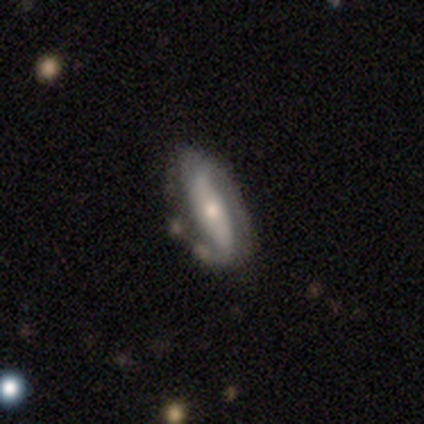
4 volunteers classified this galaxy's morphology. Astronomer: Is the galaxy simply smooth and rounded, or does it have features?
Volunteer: featured or disk — 100%.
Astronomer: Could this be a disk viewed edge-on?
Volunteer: no — 100%.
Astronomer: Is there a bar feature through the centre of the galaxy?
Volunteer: strong — 50%, tied with weak at 50%.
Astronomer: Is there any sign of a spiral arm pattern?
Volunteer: yes — 100%.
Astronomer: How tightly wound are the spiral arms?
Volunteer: loose — 100%.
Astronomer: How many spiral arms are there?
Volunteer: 2 — 75%.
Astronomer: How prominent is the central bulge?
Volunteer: small — 100%.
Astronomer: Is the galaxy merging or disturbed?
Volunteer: none — 75%.